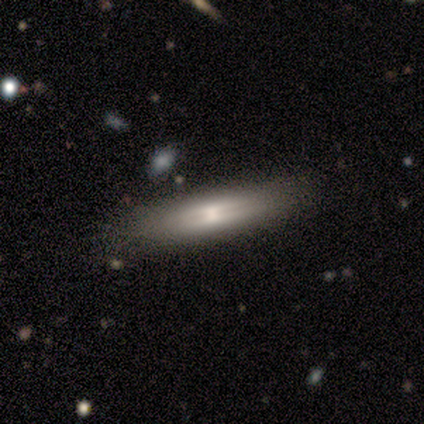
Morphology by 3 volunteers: Smooth or featured?
  - featured or disk: 100% *
  - smooth: 0%
  - star or artifact: 0%
Edge-on disk?
  - yes: 67% *
  - no: 33%
Edge-on bulge?
  - rounded: 100% *
  - boxy: 0%
  - none: 0%
Merging?
  - none: 100% *
  - minor disturbance: 0%
  - major disturbance: 0%
  - merger: 0%